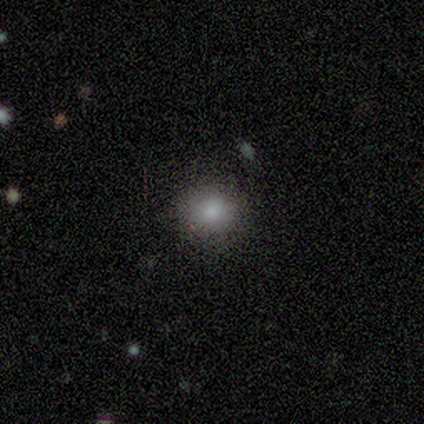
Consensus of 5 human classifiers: smooth_or_featured: smooth (p=0.80) [alt: featured or disk p=0.20]
how_rounded: round (p=0.75) [alt: in between p=0.25]
merging: none (p=0.80) [alt: minor disturbance p=0.20]